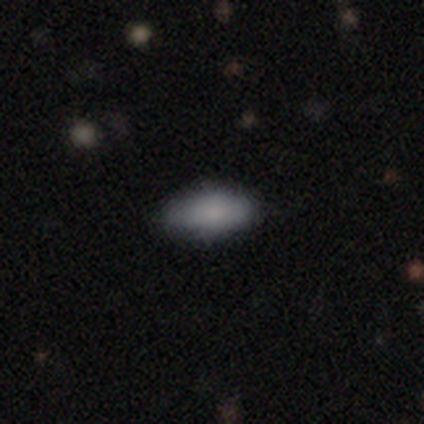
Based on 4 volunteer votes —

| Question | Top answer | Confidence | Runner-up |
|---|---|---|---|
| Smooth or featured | smooth | 100% | — |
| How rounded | in between | 75% | cigar-shaped (25%) |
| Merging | none | 75% | major disturbance (25%) |